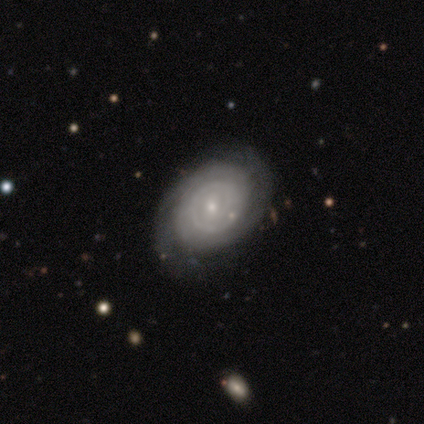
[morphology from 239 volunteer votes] Smooth or featured? featured or disk (55%)
Edge-on disk? no (89%)
Bar? no (70%)
Spiral arms? yes (84%)
Spiral winding? tight (52%)
Spiral arm count? 2 (43%)
Bulge size? small (91%)
Merging? none (63%)